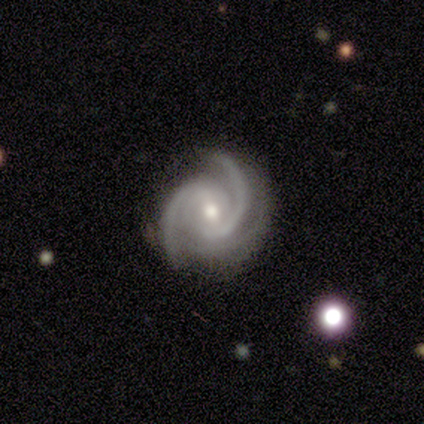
A featured or disk galaxy (94%) with a weak bar (47%), 2 (69%) medium (63%) spiral arms (100%) and a moderate central bulge (63%). Merging: none (74%).